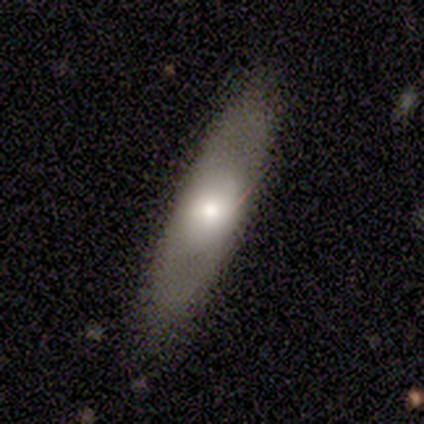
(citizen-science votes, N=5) smooth 60%, featured or disk 20%, star or artifact 20%. Down the decision tree: how rounded — cigar-shaped (67%); merging — none (100%).